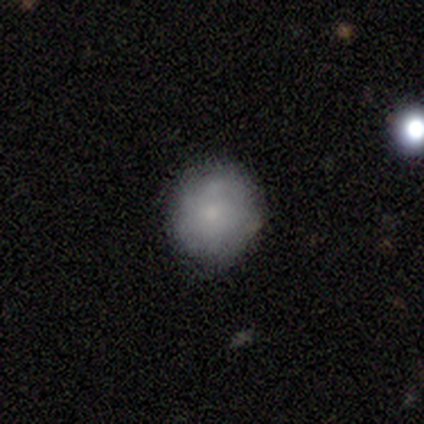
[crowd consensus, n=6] Volunteers were most divided on "how rounded": round: 80%, in between: 20%, cigar-shaped: 0%. More confident: smooth or featured — smooth (83%); merging — none (83%).